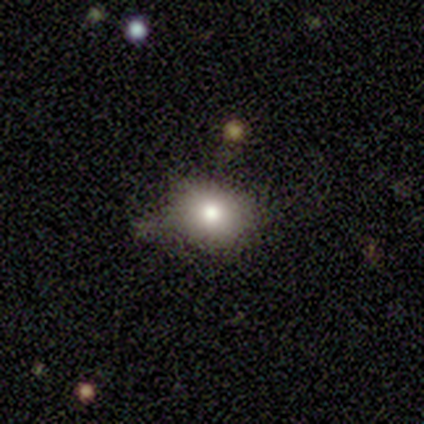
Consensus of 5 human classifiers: Volunteers were most divided on "merging" (2-way tie): none: 40%, minor disturbance: 40%, merger: 20%, major disturbance: 0%. More confident: smooth or featured — smooth (100%); how rounded — round (100%).